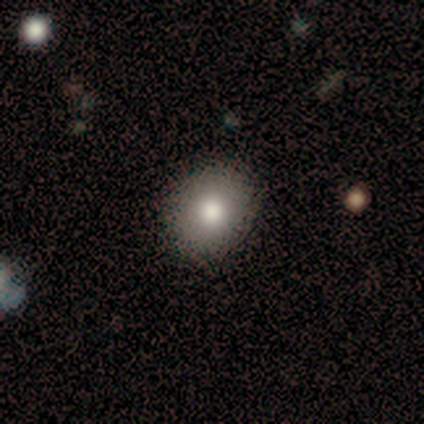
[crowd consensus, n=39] A smooth galaxy with no disk features (90%) that is round (80%).

Vote fractions:
- Smooth or featured? smooth: 90% / featured or disk: 10% / star or artifact: 0%
- How rounded? round: 80% / in between: 20% / cigar-shaped: 0%
- Merging? none: 90% / minor disturbance: 5% / major disturbance: 5% / merger: 0%